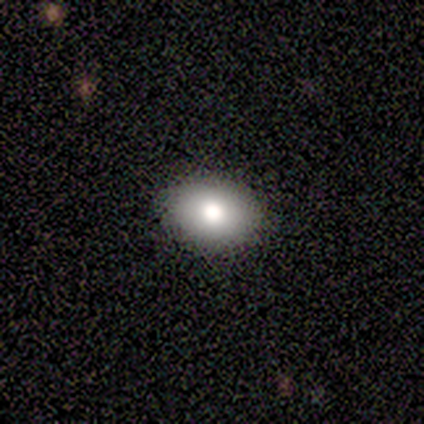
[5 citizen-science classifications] smooth-or-featured: smooth: 80% | star or artifact: 20% | featured or disk: 0%
  how-rounded: in between: 100% | round: 0% | cigar-shaped: 0%
  merging: none: 100% | minor disturbance: 0% | major disturbance: 0% | merger: 0%